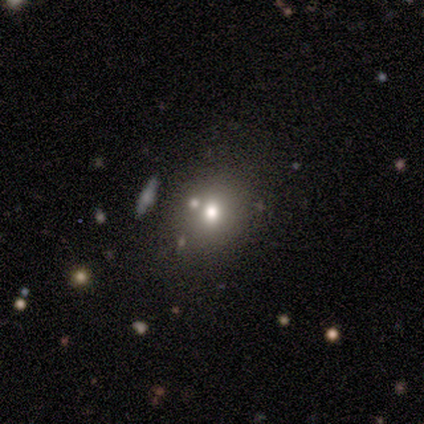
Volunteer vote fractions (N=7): smooth_or_featured: smooth (p=0.57) [alt: featured or disk p=0.29]
how_rounded: round (p=0.75) [alt: in between p=0.25]
merging: none (p=0.83) [alt: merger p=0.17]